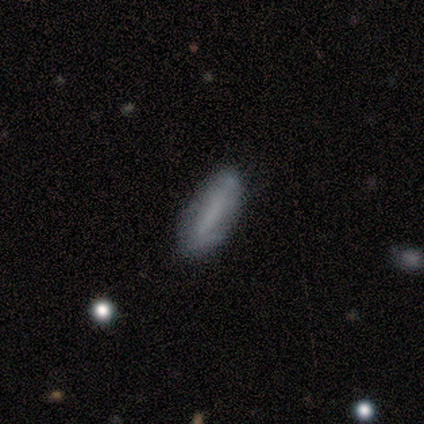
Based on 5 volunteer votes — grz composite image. It shows a smooth galaxy with no disk features (80%) that is in between round and cigar-shaped (50%, tied with cigar-shaped). Merging: none (80%).